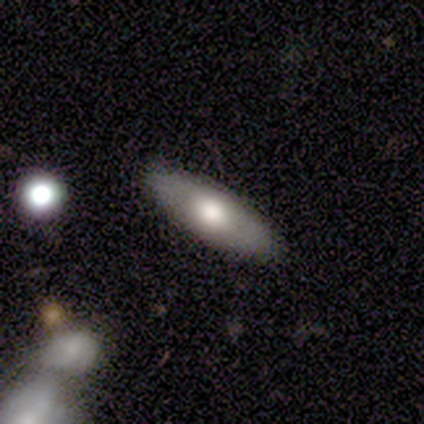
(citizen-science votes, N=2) Smooth or featured? 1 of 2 (50%, tied with featured or disk) said smooth. How rounded? 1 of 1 (100%) said in between. Merging? 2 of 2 (100%) said none.